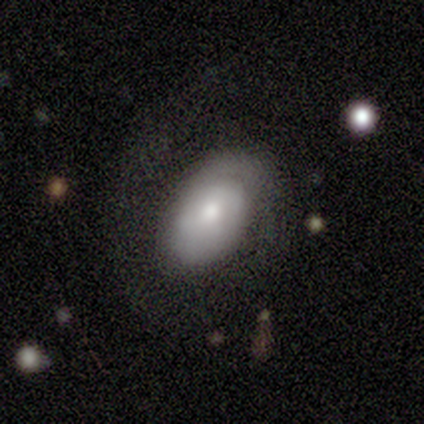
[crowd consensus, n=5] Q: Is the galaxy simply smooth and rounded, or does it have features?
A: smooth — 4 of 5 (80%).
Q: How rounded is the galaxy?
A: in between — 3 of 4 (75%).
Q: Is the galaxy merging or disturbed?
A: none — 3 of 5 (60%).